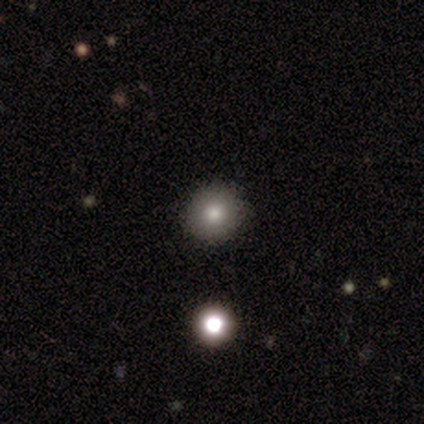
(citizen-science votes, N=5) smooth_or_featured: smooth (p=0.80) [alt: featured or disk p=0.20]
how_rounded: round (p=1.00)
merging: none (p=0.80) [alt: minor disturbance p=0.20]